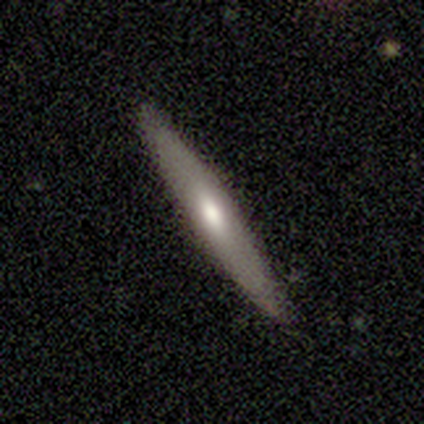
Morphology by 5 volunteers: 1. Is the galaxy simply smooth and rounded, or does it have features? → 40% smooth (tied), 40% featured or disk (tied), 20% star or artifact.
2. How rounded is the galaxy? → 100% cigar-shaped, 0% round, 0% in between.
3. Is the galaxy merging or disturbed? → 75% none, 25% minor disturbance, 0% major disturbance, 0% merger.